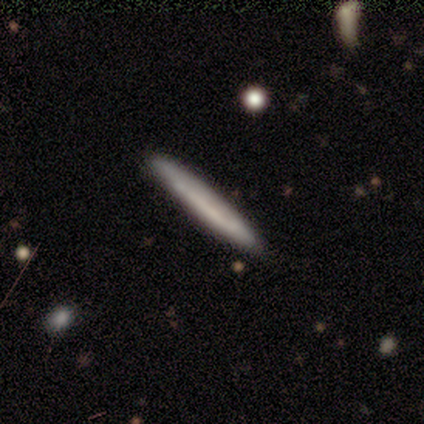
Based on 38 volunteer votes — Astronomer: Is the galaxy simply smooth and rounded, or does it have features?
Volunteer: smooth — 71%.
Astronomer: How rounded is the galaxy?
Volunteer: cigar-shaped — 100%.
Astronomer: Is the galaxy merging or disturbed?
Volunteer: none — 58%.